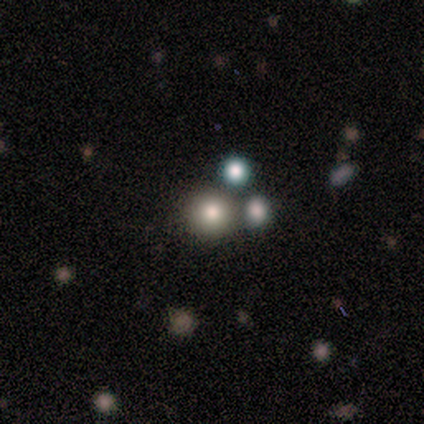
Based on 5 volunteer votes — Smooth or featured?
  - smooth: 80% *
  - featured or disk: 20%
  - star or artifact: 0%
How rounded?
  - round: 100% *
  - in between: 0%
  - cigar-shaped: 0%
Merging?
  - none: 80% *
  - major disturbance: 20%
  - minor disturbance: 0%
  - merger: 0%